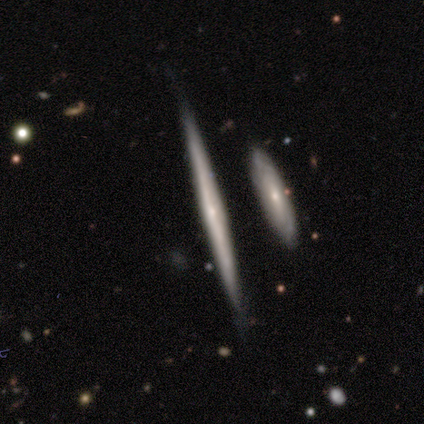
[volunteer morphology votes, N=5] smooth-or-featured: featured or disk: 80% | smooth: 20% | star or artifact: 0%
  disk-edge-on: yes: 75% | no: 25%
    edge-on-bulge: rounded: 67% | none: 33% | boxy: 0%
  merging: none: 100% | minor disturbance: 0% | major disturbance: 0% | merger: 0%